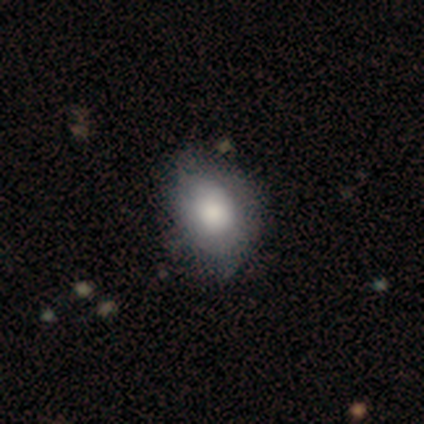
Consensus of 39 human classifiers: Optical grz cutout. It shows a smooth galaxy with no disk features (77%) that is in between round and cigar-shaped (60%). Merging: none (50%).